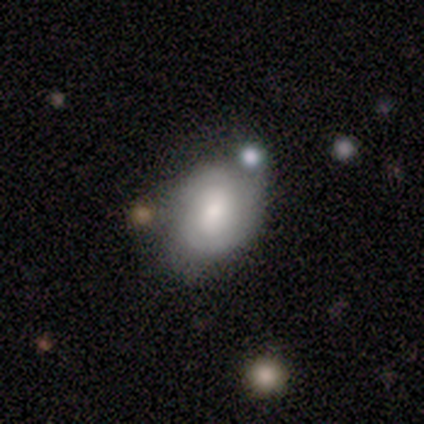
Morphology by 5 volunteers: Q: Smooth or featured?
A: smooth (60%); runner-up: featured or disk (20%)
Q: How rounded?
A: in between (67%); runner-up: round (33%)
Q: Merging?
A: minor disturbance (50%); runner-up: none (25%)